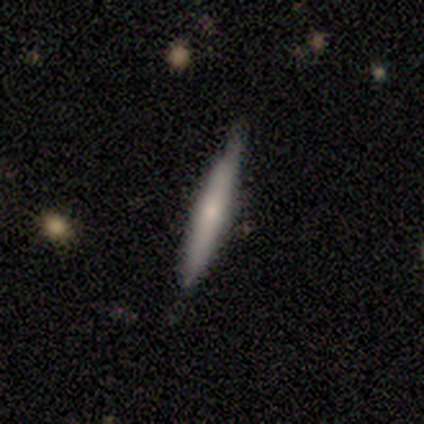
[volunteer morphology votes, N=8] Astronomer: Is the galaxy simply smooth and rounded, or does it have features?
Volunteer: smooth — 62%.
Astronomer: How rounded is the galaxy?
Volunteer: cigar-shaped — 100%.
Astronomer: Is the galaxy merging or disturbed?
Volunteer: minor disturbance — 71%.